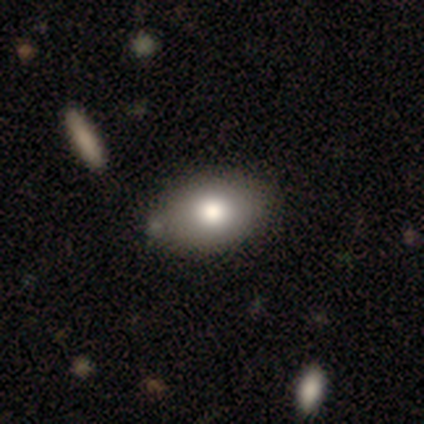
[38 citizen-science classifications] Smooth or featured: smooth — 79% (featured or disk — 16%)
How rounded: in between — 77% (round — 23%)
Merging: none — 61% (minor disturbance — 8%)